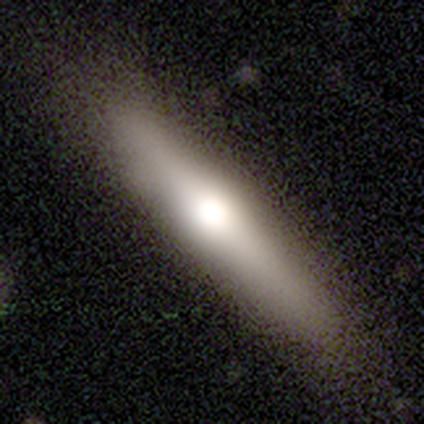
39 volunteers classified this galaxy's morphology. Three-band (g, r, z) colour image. It shows a smooth galaxy with no disk features (56%) that is cigar-shaped (91%). Merging: none (46%).